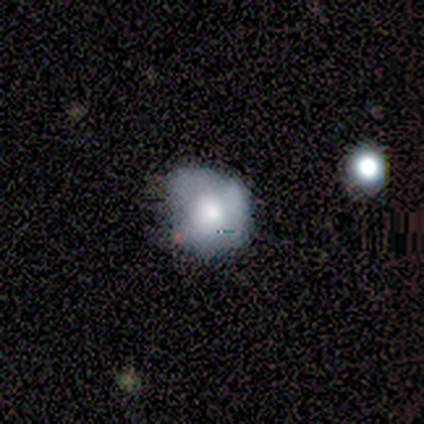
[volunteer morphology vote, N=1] A star or artifact, not a galaxy (100%).

Vote fractions:
- Smooth or featured? star or artifact: 100% / smooth: 0% / featured or disk: 0%